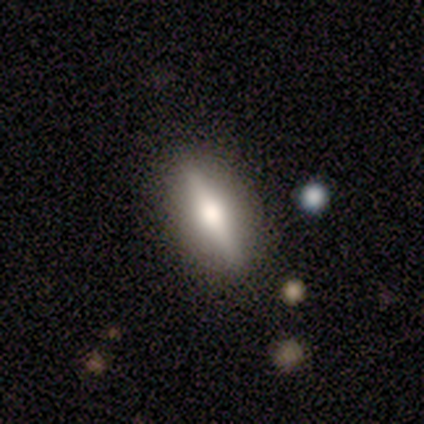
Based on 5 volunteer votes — smooth-or-featured: featured or disk: 80% | star or artifact: 20% | smooth: 0%
  disk-edge-on: yes: 75% | no: 25%
    edge-on-bulge: rounded: 100% | boxy: 0% | none: 0%
  merging: none: 100% | minor disturbance: 0% | major disturbance: 0% | merger: 0%